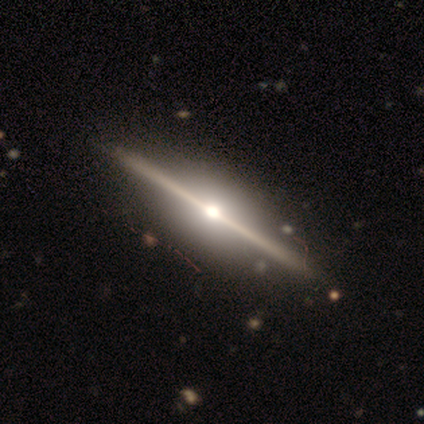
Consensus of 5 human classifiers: A featured or disk galaxy (80%) viewed edge-on (75%) with a rounded central bulge (100%).

Vote fractions:
- Smooth or featured? featured or disk: 80% / star or artifact: 20% / smooth: 0%
- Edge-on disk? yes: 75% / no: 25%
- Edge-on bulge? rounded: 100% / boxy: 0% / none: 0%
- Merging? none: 100% / minor disturbance: 0% / major disturbance: 0% / merger: 0%